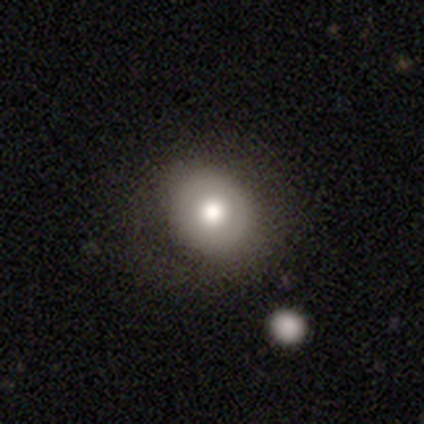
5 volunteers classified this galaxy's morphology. Smooth or featured?
  - smooth: 60% *
  - featured or disk: 20%
  - star or artifact: 20%
How rounded?
  - round: 100% *
  - in between: 0%
  - cigar-shaped: 0%
Merging?
  - none: 100% *
  - minor disturbance: 0%
  - major disturbance: 0%
  - merger: 0%